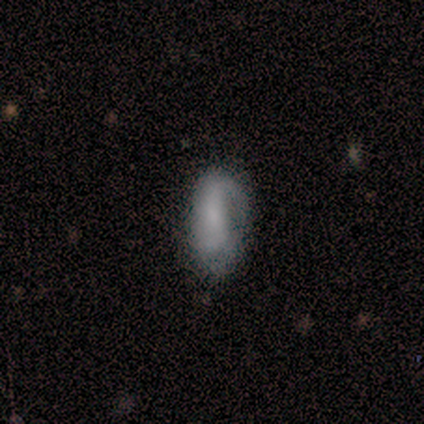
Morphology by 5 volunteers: smooth-or-featured: smooth: 40% (tied) | featured or disk: 40% (tied) | star or artifact: 20%
  how-rounded: in between: 100% | round: 0% | cigar-shaped: 0%
  merging: none: 100% | minor disturbance: 0% | major disturbance: 0% | merger: 0%